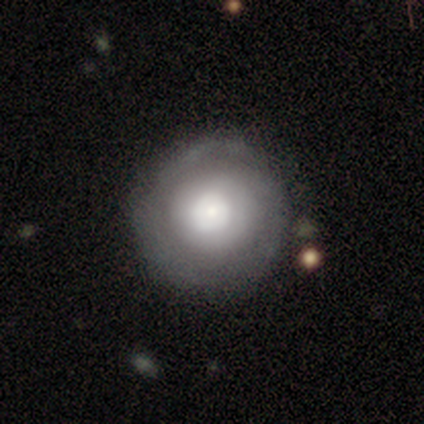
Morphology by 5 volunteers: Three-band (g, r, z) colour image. It shows a smooth galaxy with no disk features (60%) that is round (100%). Merging: none (75%).